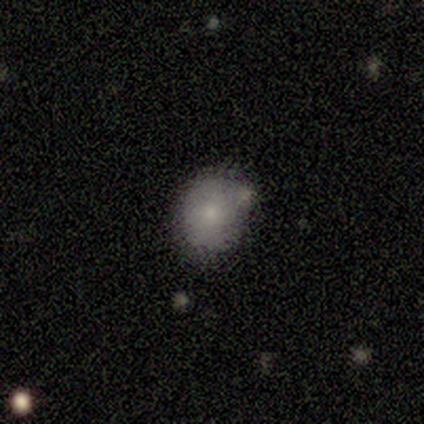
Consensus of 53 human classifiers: smooth 75%, featured or disk 21%, star or artifact 4%. Down the decision tree: how rounded — round (75%); merging — none (65%).